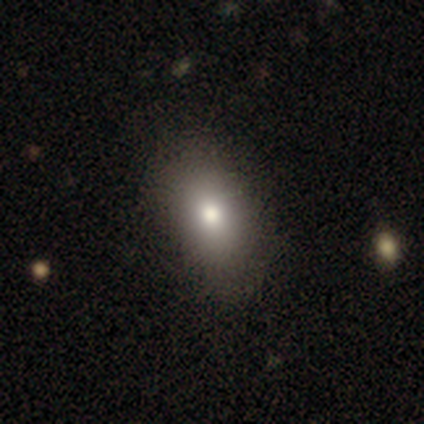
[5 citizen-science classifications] Overall: smooth (100%). How rounded: in between (100%). Merging: none (80%).